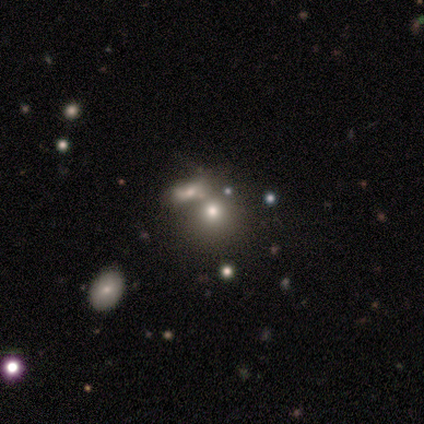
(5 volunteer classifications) A smooth galaxy with no disk features (60%) that is round (100%). Merging: merger (80%).